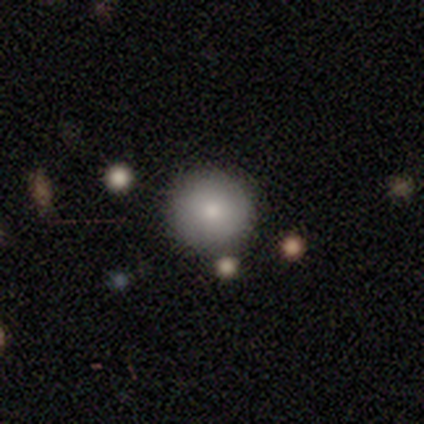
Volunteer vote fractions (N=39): smooth-or-featured: smooth: 85% | featured or disk: 8% | star or artifact: 8%
  how-rounded: round: 97% | cigar-shaped: 3% | in between: 0%
  merging: none: 92% | minor disturbance: 3% | major disturbance: 3% | merger: 3%